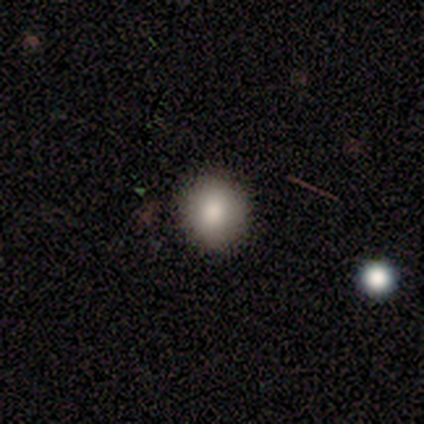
This appears to be a smooth galaxy with no disk features (90%) that is round (77%). Merging: none (70%).